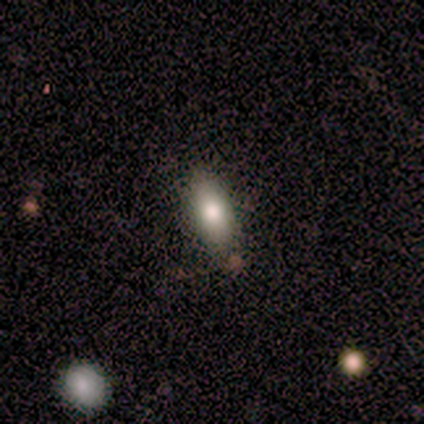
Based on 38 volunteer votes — This appears to be a smooth galaxy with no disk features (61%) that is in between round and cigar-shaped (61%). Merging: none (76%).